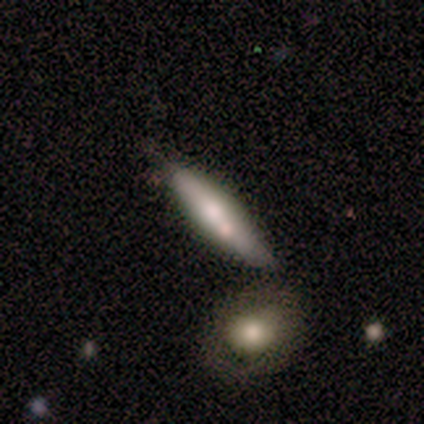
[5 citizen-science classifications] Smooth or featured? 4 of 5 (80%) said featured or disk. Edge-on disk? 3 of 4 (75%) said yes. Edge-on bulge? 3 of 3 (100%) said rounded. Merging? 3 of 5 (60%) said none.